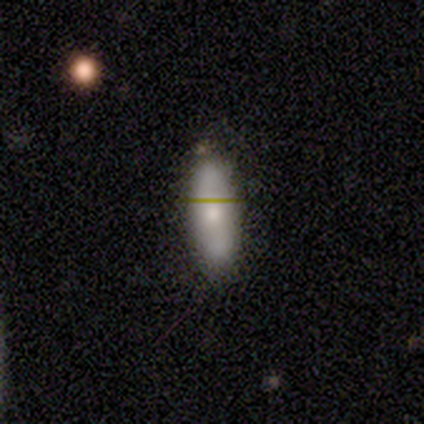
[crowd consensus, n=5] smooth-or-featured: smooth: 60% | featured or disk: 40% | star or artifact: 0%
  how-rounded: cigar-shaped: 67% | in between: 33% | round: 0%
  merging: none: 60% | minor disturbance: 40% | major disturbance: 0% | merger: 0%